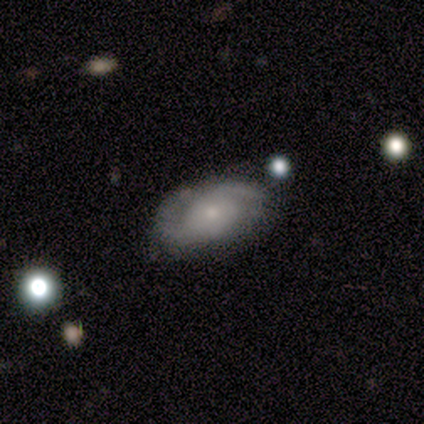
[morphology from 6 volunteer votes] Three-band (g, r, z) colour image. It shows a featured or disk galaxy (100%) with a weak bar (50%, tied with no), 2 (80%) medium (80%) spiral arms (83%) and a small central bulge (67%). Merging: none (83%).